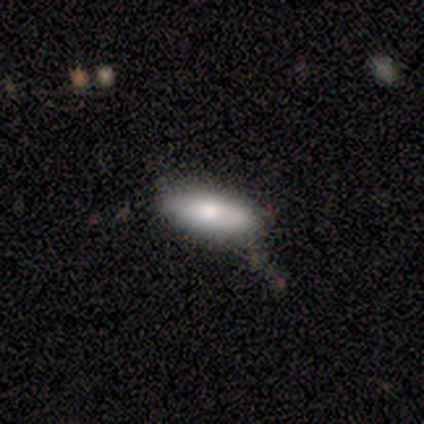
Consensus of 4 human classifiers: Smooth or featured? smooth (100%)
How rounded? in between (75%)
Merging? none (50%)